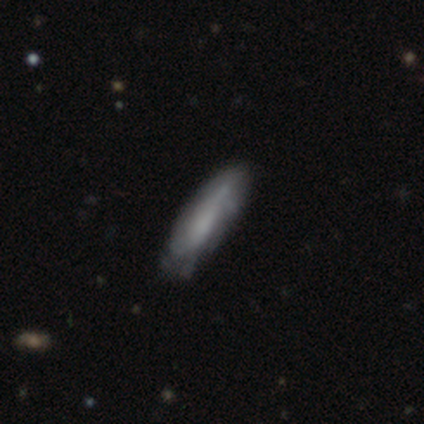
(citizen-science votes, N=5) This appears to be a smooth galaxy with no disk features (40%, tied with featured or disk) that is in between round and cigar-shaped (50%, tied with cigar-shaped). Merging: none (75%).